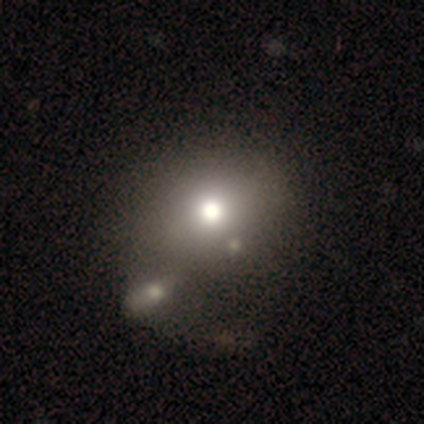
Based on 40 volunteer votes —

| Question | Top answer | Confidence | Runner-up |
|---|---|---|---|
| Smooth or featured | smooth | 65% | star or artifact (25%) |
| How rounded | round | 73% | in between (27%) |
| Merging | merger | 33% | none (20%) |